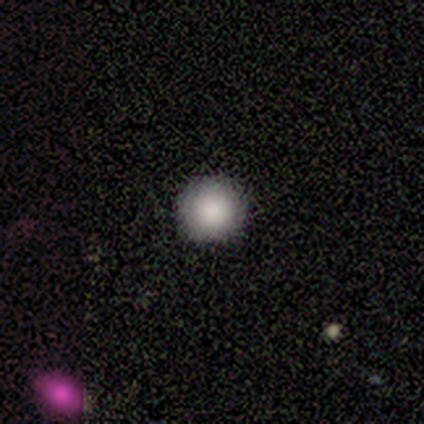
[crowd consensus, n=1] This is clearly a smooth galaxy (100%). How rounded: clearly round (100%). Merging: clearly none (100%).